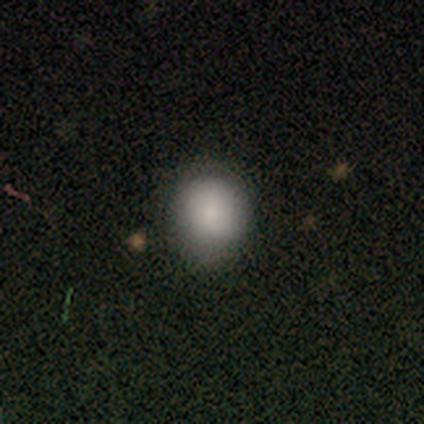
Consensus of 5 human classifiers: smooth-or-featured: smooth: 100% | featured or disk: 0% | star or artifact: 0%
  how-rounded: round: 100% | in between: 0% | cigar-shaped: 0%
  merging: none: 100% | minor disturbance: 0% | major disturbance: 0% | merger: 0%